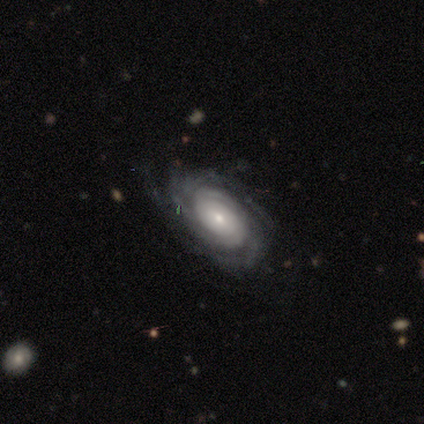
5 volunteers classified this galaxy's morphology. featured or disk 100%, smooth 0%, star or artifact 0%. Down the decision tree: edge-on disk — no (60%); bar — weak (67%); spiral arms — yes (100%); spiral arm count — 2 (33%, tied with more than 4 and can't tell); spiral winding — tight (67%); bulge size — moderate (67%); merging — minor disturbance (60%).